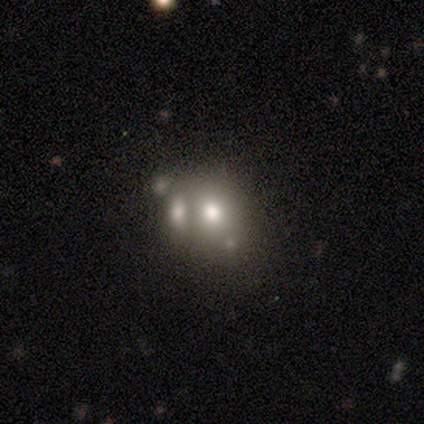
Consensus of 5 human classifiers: Smooth or featured: smooth — 60% (featured or disk — 20%)
How rounded: in between — 67% (round — 33%)
Merging: merger — 100%